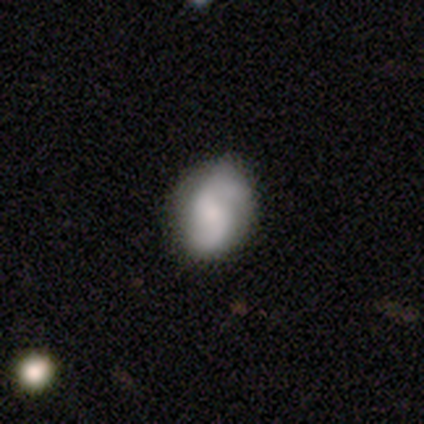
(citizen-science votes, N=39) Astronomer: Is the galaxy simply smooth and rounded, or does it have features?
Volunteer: featured or disk — 64%.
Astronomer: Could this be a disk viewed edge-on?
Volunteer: no — 100%.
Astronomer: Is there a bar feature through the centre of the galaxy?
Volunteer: no — 60%.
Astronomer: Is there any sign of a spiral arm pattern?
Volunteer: yes — 96%.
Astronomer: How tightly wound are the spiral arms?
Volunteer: loose — 50% (runner-up: medium, 38%).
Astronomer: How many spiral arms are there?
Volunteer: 2 — 92%.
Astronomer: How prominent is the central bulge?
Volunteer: small — 44% (runner-up: moderate, 40%).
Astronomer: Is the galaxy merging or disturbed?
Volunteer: none — 54%.